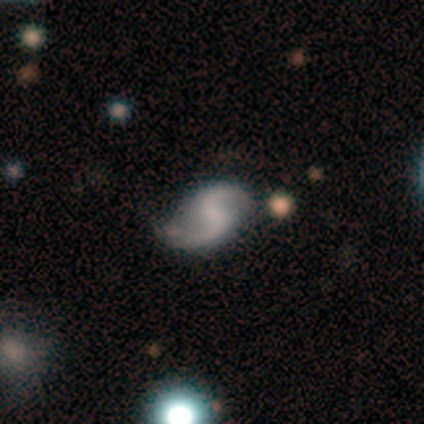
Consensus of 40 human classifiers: Smooth or featured? featured or disk (90%)
Edge-on disk? no (100%)
Bar? weak (39%)
Spiral arms? yes (86%)
Spiral winding? loose (65%)
Spiral arm count? 2 (90%)
Bulge size? none (58%)
Merging? none (78%)